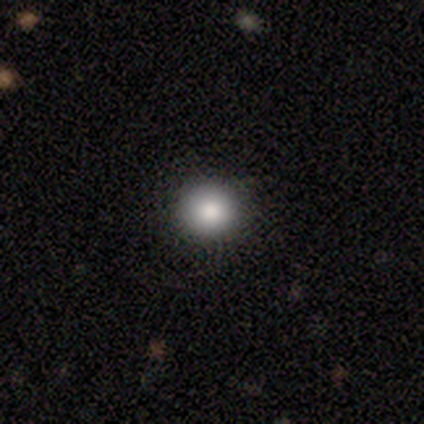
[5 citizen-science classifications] smooth_or_featured: smooth (p=0.80) [alt: featured or disk p=0.20]
how_rounded: round (p=1.00)
merging: none (p=0.80) [alt: minor disturbance p=0.20]